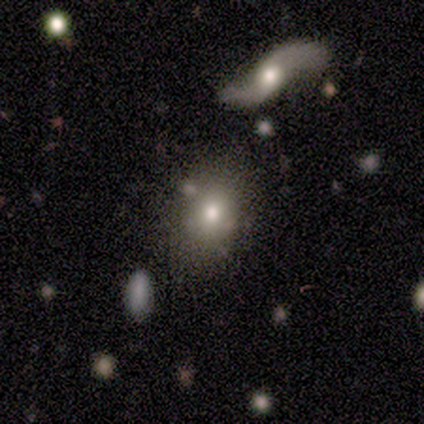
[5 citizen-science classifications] A smooth galaxy with no disk features (60%) that is in between round and cigar-shaped (67%).

Vote fractions:
- Smooth or featured? smooth: 60% / featured or disk: 40% / star or artifact: 0%
- How rounded? in between: 67% / round: 33% / cigar-shaped: 0%
- Merging? none: 60% / minor disturbance: 40% / major disturbance: 0% / merger: 0%